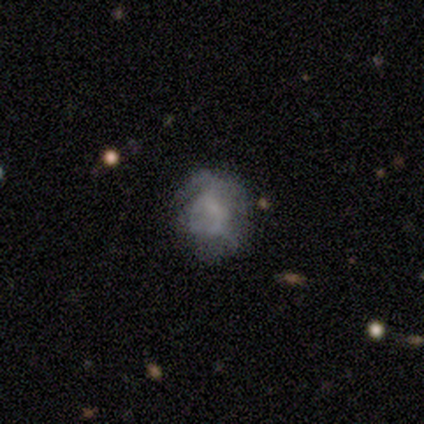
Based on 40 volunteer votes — Smooth or featured?
  - featured or disk: 52% *
  - smooth: 30%
  - star or artifact: 18%
Edge-on disk?
  - no: 100% *
  - yes: 0%
Bar?
  - no: 90% *
  - strong: 5%
  - weak: 5%
Spiral arms?
  - no: 57% *
  - yes: 43%
Bulge size?
  - none: 62% *
  - small: 19%
  - moderate: 10%
  - dominant: 5%
  - large: 5%
Merging?
  - none: 45% *
  - major disturbance: 30%
  - minor disturbance: 12%
  - merger: 12%